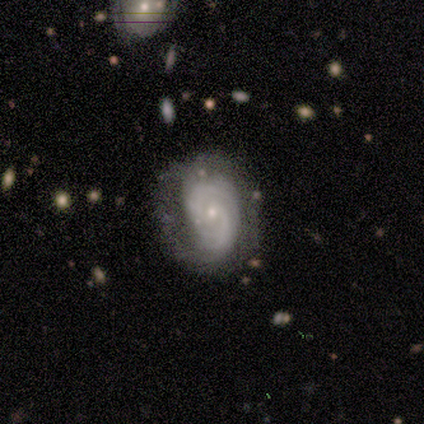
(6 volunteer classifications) featured or disk 100%, smooth 0%, star or artifact 0%. Down the decision tree: edge-on disk — no (100%); bar — no (100%); spiral arms — yes (100%); spiral arm count — 2 (67%); spiral winding — tight (67%); bulge size — moderate (50%); merging — none (67%).